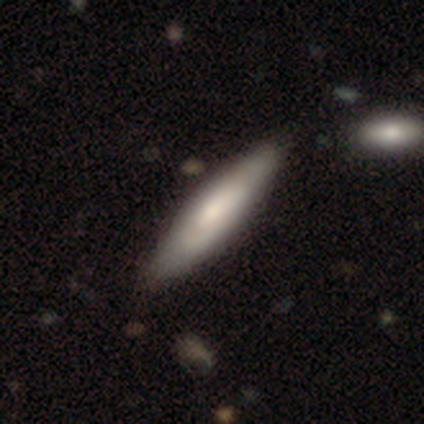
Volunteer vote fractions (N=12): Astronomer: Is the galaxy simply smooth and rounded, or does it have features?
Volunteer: smooth — 67%.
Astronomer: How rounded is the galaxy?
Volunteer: cigar-shaped — 75%.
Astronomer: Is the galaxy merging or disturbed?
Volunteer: none — 58%.